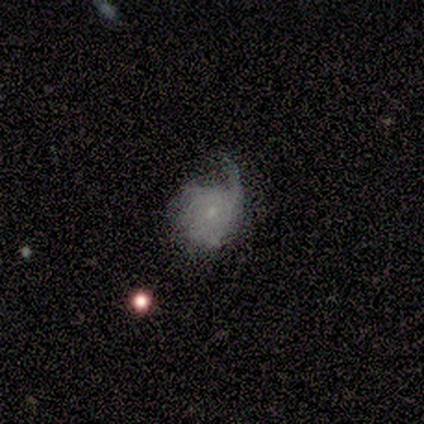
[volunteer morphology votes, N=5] A smooth galaxy with no disk features (60%) that is round (67%). Merging: minor disturbance (40%, tied with major disturbance).